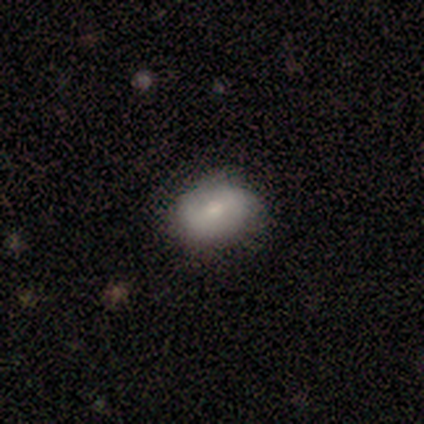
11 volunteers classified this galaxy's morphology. Overall: smooth (82%). How rounded: in between (78%). Merging: none (55%; minor disturbance 45%).